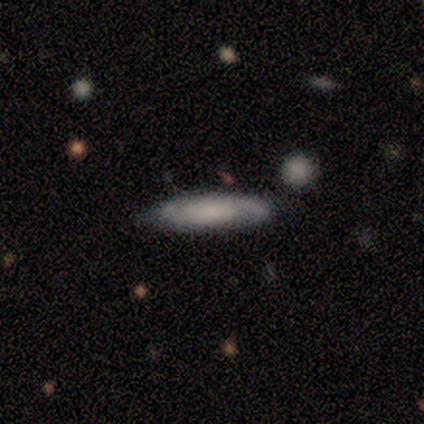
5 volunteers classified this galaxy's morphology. type=smooth (60%); roundness=cigar-shaped (100%); merging=none (80%).